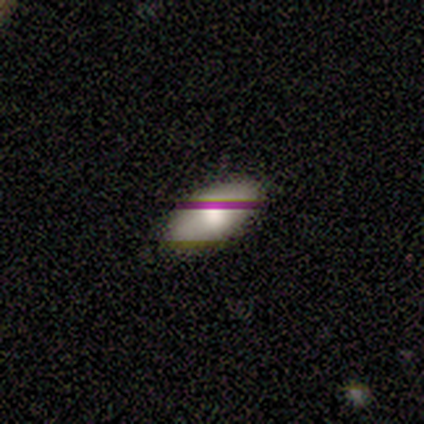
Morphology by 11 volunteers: Smooth or featured?
  - smooth: 91% *
  - featured or disk: 9%
  - star or artifact: 0%
How rounded?
  - in between: 100% *
  - round: 0%
  - cigar-shaped: 0%
Merging?
  - none: 100% *
  - minor disturbance: 0%
  - major disturbance: 0%
  - merger: 0%